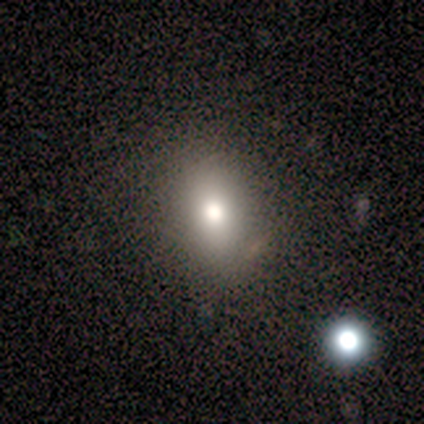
Smooth or featured?
  - smooth: 60% *
  - featured or disk: 20%
  - star or artifact: 20%
How rounded?
  - in between: 67% *
  - round: 33%
  - cigar-shaped: 0%
Merging?
  - none: 50% *
  - minor disturbance: 25%
  - merger: 25%
  - major disturbance: 0%